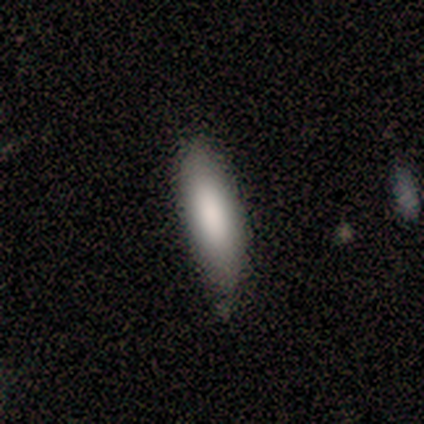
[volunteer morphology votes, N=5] smooth 100%, featured or disk 0%, star or artifact 0%. Down the decision tree: how rounded — in between (80%); merging — none (80%).